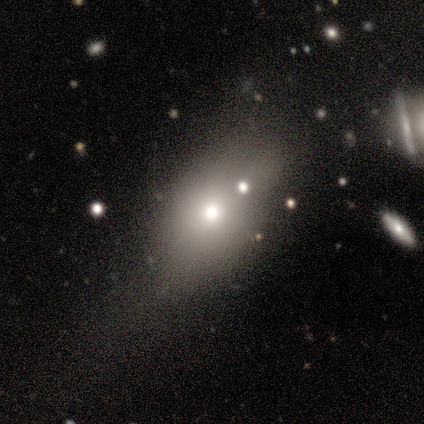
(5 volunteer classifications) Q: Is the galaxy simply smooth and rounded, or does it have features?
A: smooth — 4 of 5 (80%).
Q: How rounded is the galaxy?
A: in between — 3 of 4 (75%).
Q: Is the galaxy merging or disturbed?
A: major disturbance — 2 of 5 (40%).